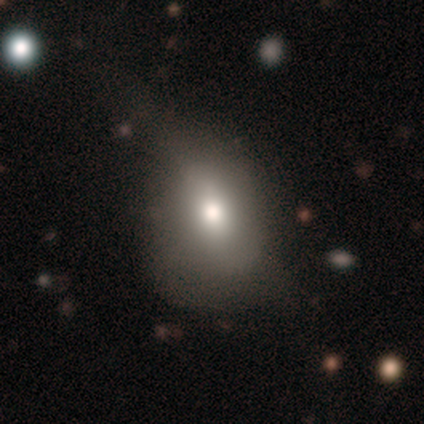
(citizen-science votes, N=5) Smooth or featured? smooth (100%)
How rounded? in between (60%)
Merging? major disturbance (80%)